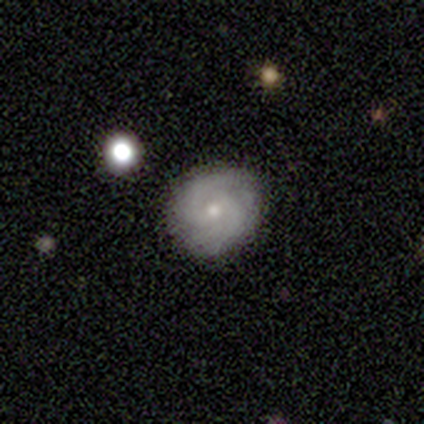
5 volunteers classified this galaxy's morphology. Q: Smooth or featured?
A: featured or disk (100%)
Q: Edge-on disk?
A: no (80%); runner-up: yes (20%)
Q: Bar?
A: weak (50%); tied with: no (50%)
Q: Spiral arms?
A: yes (100%)
Q: Spiral winding?
A: tight (50%); runner-up: medium (25%)
Q: Spiral arm count?
A: 2 (75%); runner-up: can't tell (25%)
Q: Bulge size?
A: small (75%); runner-up: large (25%)
Q: Merging?
A: none (100%)